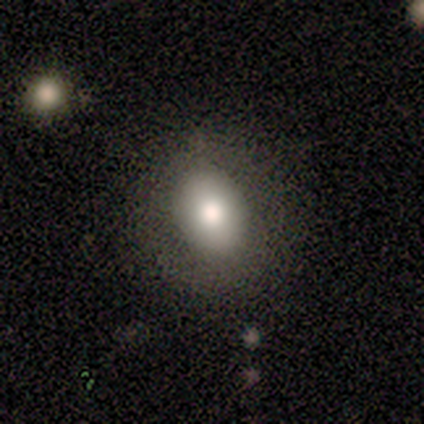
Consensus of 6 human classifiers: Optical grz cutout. It shows a smooth galaxy with no disk features (83%) that is in between round and cigar-shaped (80%). Merging: none (100%).